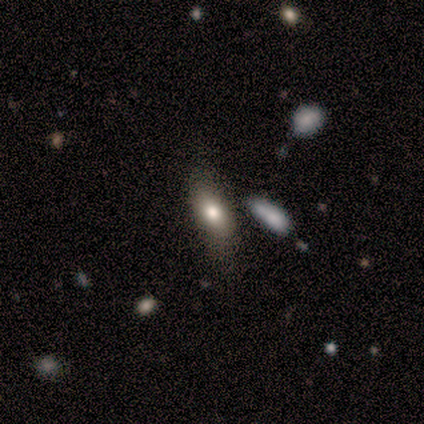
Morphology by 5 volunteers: smooth-or-featured: smooth: 80% | featured or disk: 20% | star or artifact: 0%
  how-rounded: in between: 75% | cigar-shaped: 25% | round: 0%
  merging: minor disturbance: 60% | none: 20% | merger: 20% | major disturbance: 0%